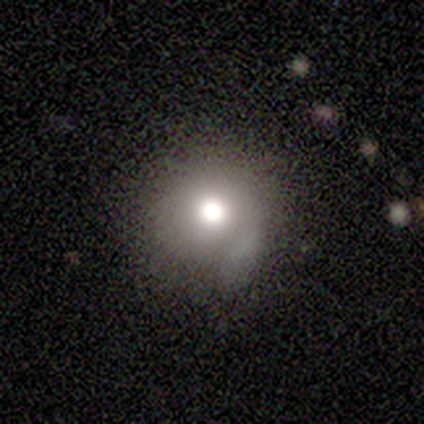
smooth_or_featured: smooth (p=0.40) [tied with: star or artifact p=0.40]
how_rounded: round (p=1.00)
merging: none (p=0.67) [alt: minor disturbance p=0.33]